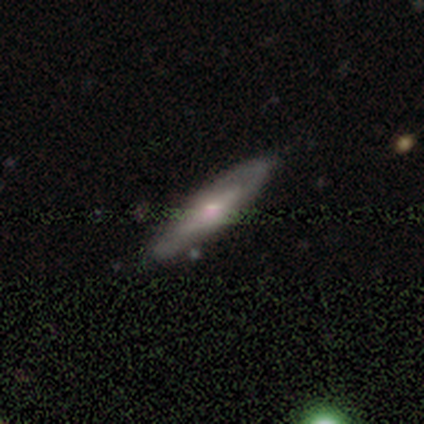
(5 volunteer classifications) A featured or disk galaxy (60%) with a weak bar (50%, tied with no), 1 (50%, tied with can't tell) medium (50%, tied with loose) spiral arms (100%) and a large central bulge (50%, tied with none). Merging: none (75%).